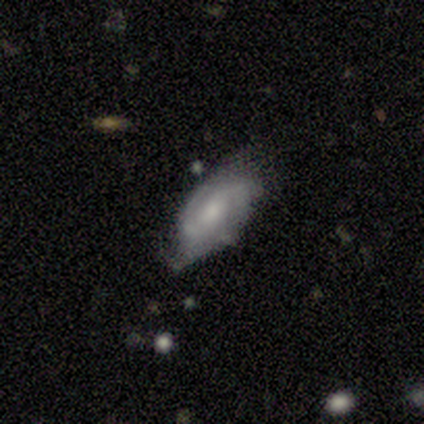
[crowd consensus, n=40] Overall: featured or disk (70%). Edge-on disk: no (86%). Bar: weak (54%; no 46%). Spiral arms: yes (88%). Spiral arm count: 2 (57%; can't tell 29%). Spiral winding: medium (52%; tight 38%). Bulge size: small (46%; moderate 38%). Merging: none (54%; minor disturbance 33%).